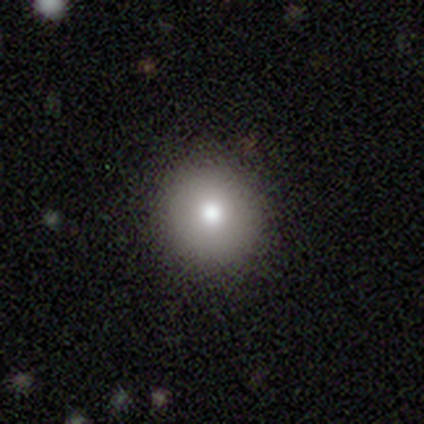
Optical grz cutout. It shows a smooth galaxy with no disk features (50%) that is round (100%). Merging: none (100%).